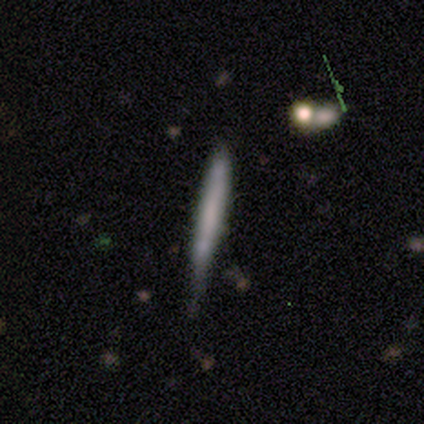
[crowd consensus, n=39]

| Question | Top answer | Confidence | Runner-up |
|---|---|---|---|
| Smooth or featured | smooth | 56% | featured or disk (36%) |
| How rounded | cigar-shaped | 100% | — |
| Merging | minor disturbance | 47% | none (44%) |